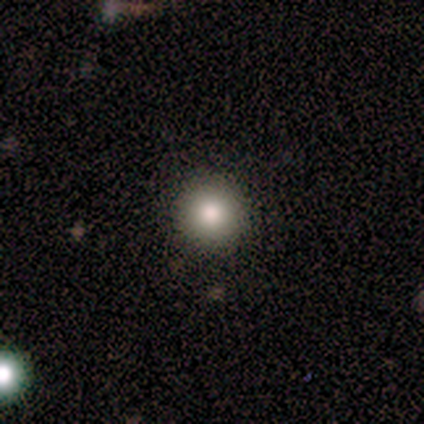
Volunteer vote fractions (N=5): Overall: smooth (100%). How rounded: round (100%). Merging: none (80%).